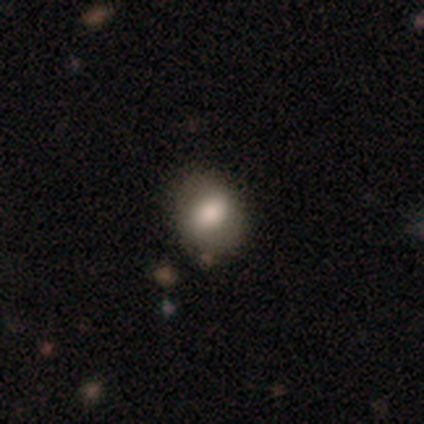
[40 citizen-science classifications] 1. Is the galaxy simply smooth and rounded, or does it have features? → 75% smooth, 15% star or artifact, 10% featured or disk.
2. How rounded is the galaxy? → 57% round, 43% in between, 0% cigar-shaped.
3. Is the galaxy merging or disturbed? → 74% none, 24% minor disturbance, 3% major disturbance, 0% merger.